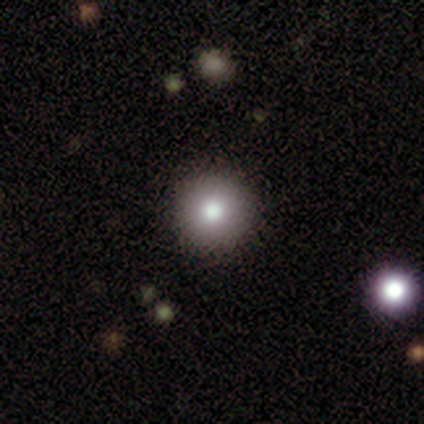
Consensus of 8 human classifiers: This appears to be a smooth galaxy with no disk features (88%) that is round (100%). Merging: none (100%).